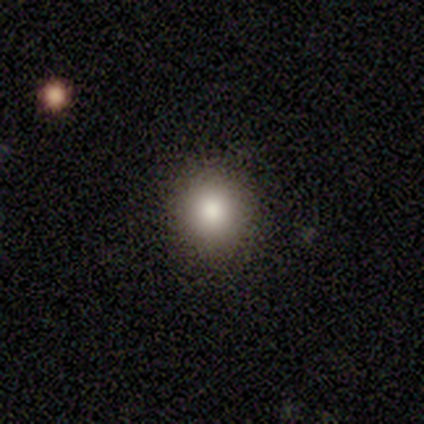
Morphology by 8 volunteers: A smooth galaxy with no disk features (88%) that is round (100%). Merging: none (88%).